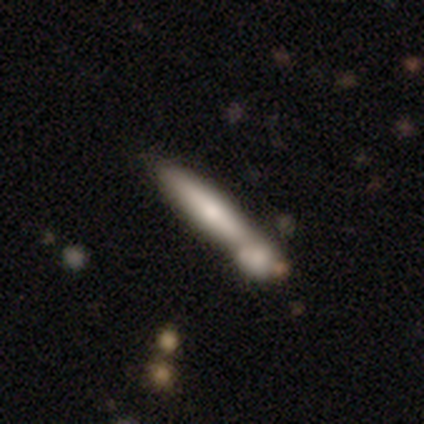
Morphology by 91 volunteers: Smooth or featured? smooth (56%)
How rounded? cigar-shaped (92%)
Merging? merger (52%)